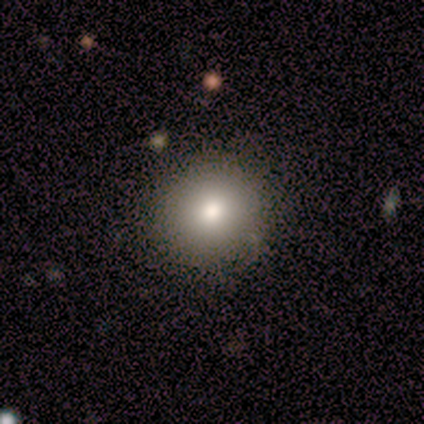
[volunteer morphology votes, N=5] smooth 100%, featured or disk 0%, star or artifact 0%. Down the decision tree: how rounded — round (80%); merging — none (100%).